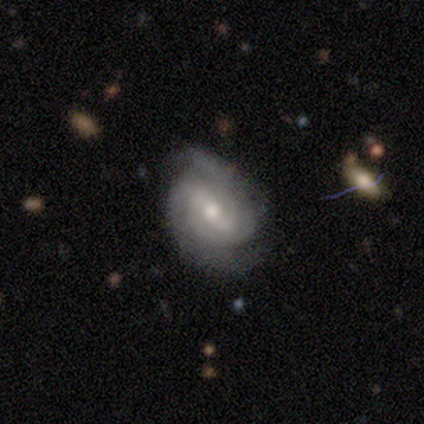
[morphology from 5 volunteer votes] A featured or disk galaxy (80%) with a weak bar (75%), 2 (50%, tied with can't tell) tight (75%) spiral arms (100%) and a moderate central bulge (50%, tied with small). Merging: none (80%).